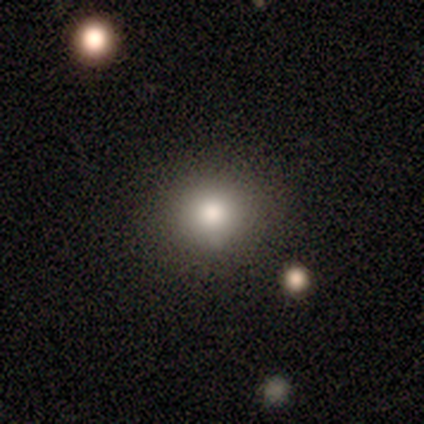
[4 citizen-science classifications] A smooth galaxy with no disk features (75%) that is round (100%).

Vote fractions:
- Smooth or featured? smooth: 75% / featured or disk: 25% / star or artifact: 0%
- How rounded? round: 100% / in between: 0% / cigar-shaped: 0%
- Merging? none: 100% / minor disturbance: 0% / major disturbance: 0% / merger: 0%